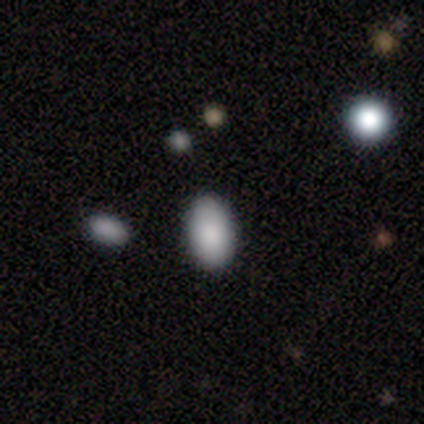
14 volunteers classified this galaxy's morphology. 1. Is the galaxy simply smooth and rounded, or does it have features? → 100% smooth, 0% featured or disk, 0% star or artifact.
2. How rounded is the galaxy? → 100% in between, 0% round, 0% cigar-shaped.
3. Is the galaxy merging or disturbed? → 86% none, 7% minor disturbance, 7% major disturbance, 0% merger.